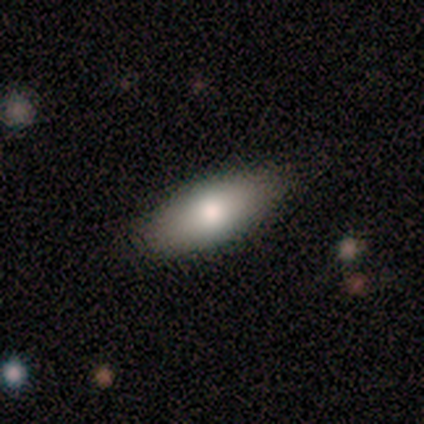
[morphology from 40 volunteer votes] smooth_or_featured: smooth (p=0.88) [alt: featured or disk p=0.10]
how_rounded: in between (p=0.77) [alt: cigar-shaped p=0.23]
merging: none (p=0.97) [alt: minor disturbance p=0.03]